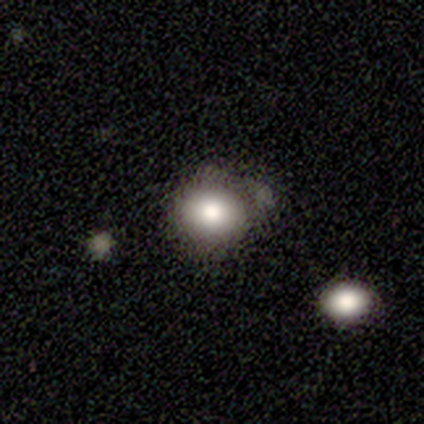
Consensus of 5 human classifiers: This appears to be a smooth galaxy with no disk features (100%) that is round (60%). Merging: minor disturbance (60%).